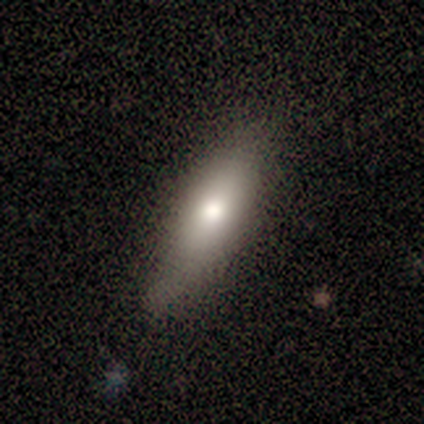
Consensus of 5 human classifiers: smooth 80%, featured or disk 20%, star or artifact 0%. Down the decision tree: how rounded — in between (75%); merging — minor disturbance (60%).